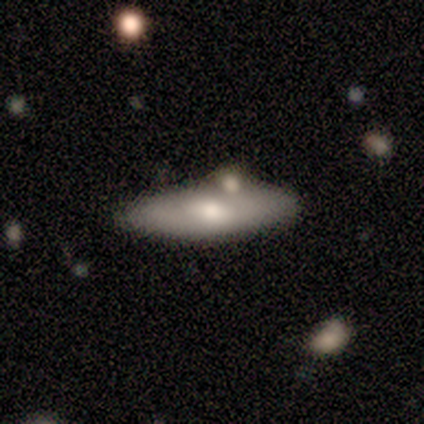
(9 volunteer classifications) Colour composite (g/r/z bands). It shows a featured or disk galaxy (56%) viewed edge-on (80%) with a rounded central bulge (100%). Merging: none (44%, tied with minor disturbance).